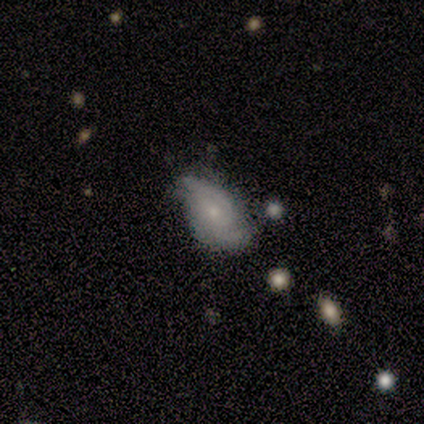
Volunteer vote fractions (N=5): smooth_or_featured: featured or disk (p=0.80) [alt: smooth p=0.20]
disk_edge_on: no (p=1.00)
bar: weak (p=0.50) [tied with: no p=0.50]
has_spiral_arms: yes (p=0.75) [alt: no p=0.25]
spiral_winding: tight (p=0.33) [tied with: medium p=0.33, loose p=0.33]
spiral_arm_count: 2 (p=0.67) [alt: can't tell p=0.33]
bulge_size: moderate (p=0.50) [tied with: small p=0.50]
merging: none (p=0.60) [alt: minor disturbance p=0.20]